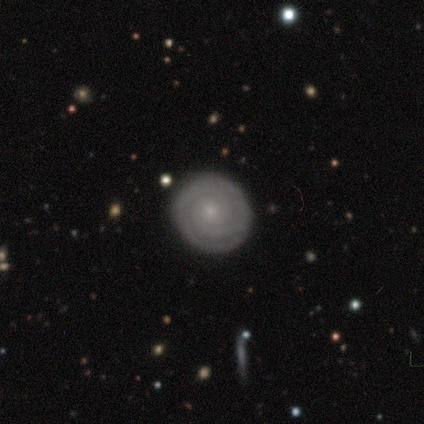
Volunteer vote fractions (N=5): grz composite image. It shows a featured or disk galaxy (80%) with no bar (75%), 2 (50%) tight (100%) spiral arms (100%) and a small central bulge (75%). Merging: none (80%).